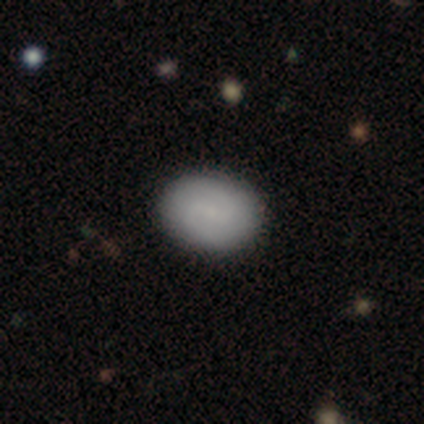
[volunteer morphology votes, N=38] featured or disk 55%, smooth 42%, star or artifact 3%. Down the decision tree: edge-on disk — no (95%); bar — weak (55%); spiral arms — yes (85%); spiral arm count — 2 (100%); spiral winding — medium (59%); bulge size — small (55%); merging — none (73%).